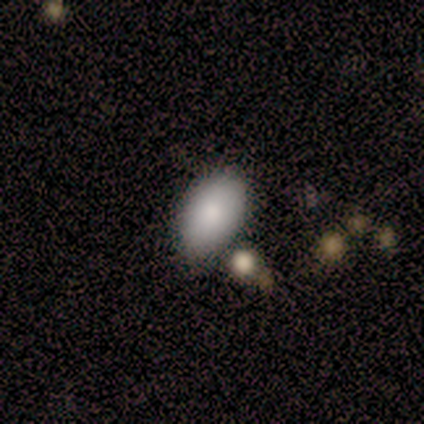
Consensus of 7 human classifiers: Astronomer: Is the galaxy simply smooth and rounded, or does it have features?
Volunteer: smooth — 100%.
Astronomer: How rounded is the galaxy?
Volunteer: in between — 100%.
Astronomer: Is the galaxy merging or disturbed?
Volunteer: none — 71%.